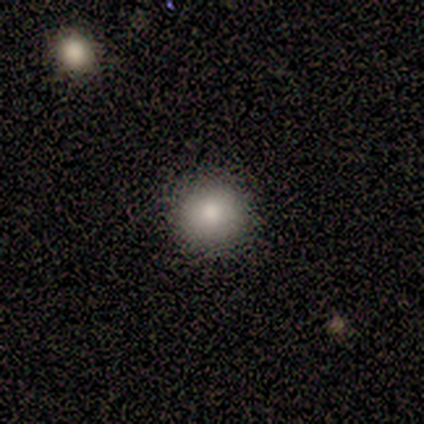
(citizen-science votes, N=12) Overall: smooth (92%). How rounded: round (100%). Merging: none (73%).